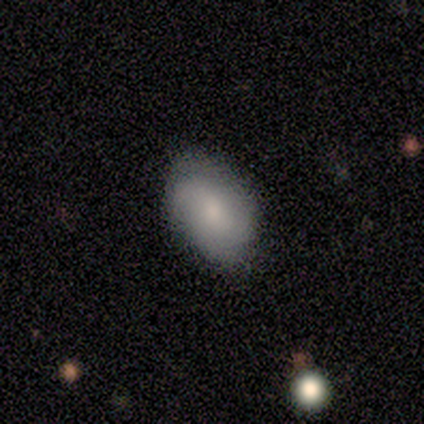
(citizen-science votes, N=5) smooth 100%, featured or disk 0%, star or artifact 0%. Down the decision tree: how rounded — in between (100%); merging — none (100%).